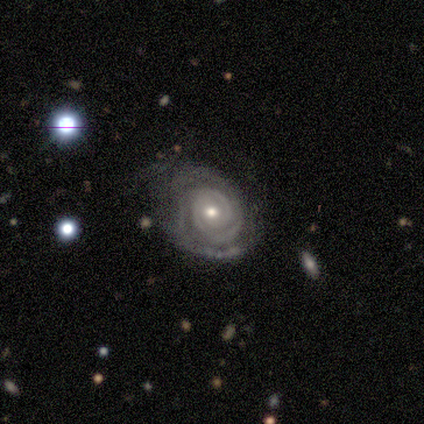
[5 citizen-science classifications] Overall: featured or disk (80%). Edge-on disk: no (100%). Bar: no (100%). Spiral arms: yes (75%). Spiral arm count: 3 (67%; can't tell 33%). Spiral winding: tight (67%; medium 33%). Bulge size: small (75%). Merging: none (60%; minor disturbance 40%).